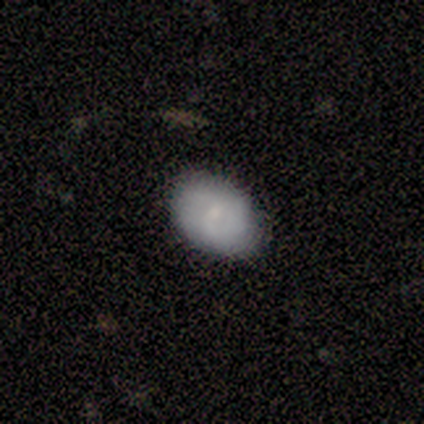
Smooth or featured? 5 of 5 (100%) said smooth. How rounded? 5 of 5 (100%) said in between. Merging? 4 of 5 (80%) said none.